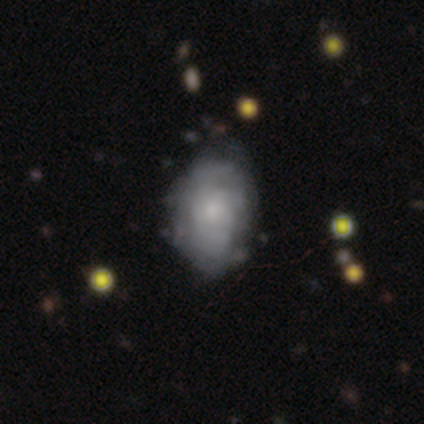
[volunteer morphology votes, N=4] Overall: smooth (50%; featured or disk 25%). How rounded: in between (100%). Merging: minor disturbance (67%; none 33%).